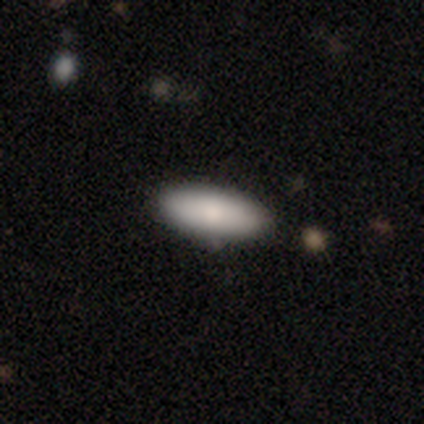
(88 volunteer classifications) Volunteers were most divided on "how rounded": in between: 67%, cigar-shaped: 31%, round: 1%. More confident: merging — none (88%); smooth or featured — smooth (80%).